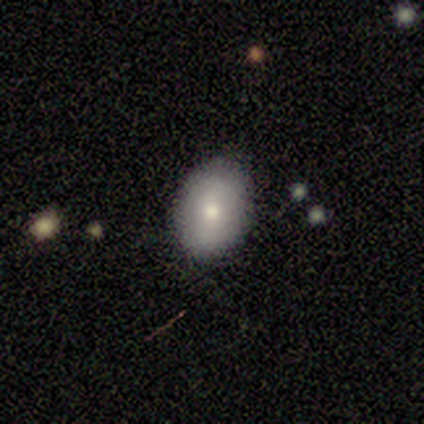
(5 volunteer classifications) A smooth galaxy with no disk features (80%) that is in between round and cigar-shaped (75%).

Vote fractions:
- Smooth or featured? smooth: 80% / featured or disk: 20% / star or artifact: 0%
- How rounded? in between: 75% / cigar-shaped: 25% / round: 0%
- Merging? none: 100% / minor disturbance: 0% / major disturbance: 0% / merger: 0%